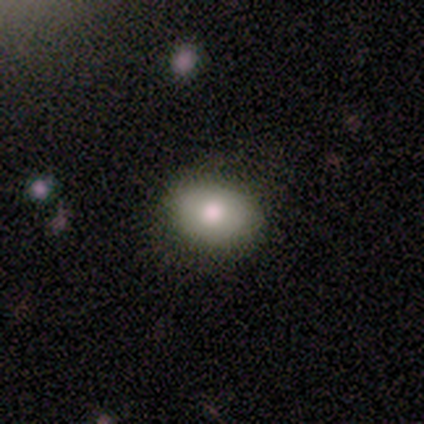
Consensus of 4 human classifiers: smooth_or_featured: smooth (p=1.00)
how_rounded: round (p=0.50) [tied with: in between p=0.50]
merging: none (p=0.50) [tied with: minor disturbance p=0.50]